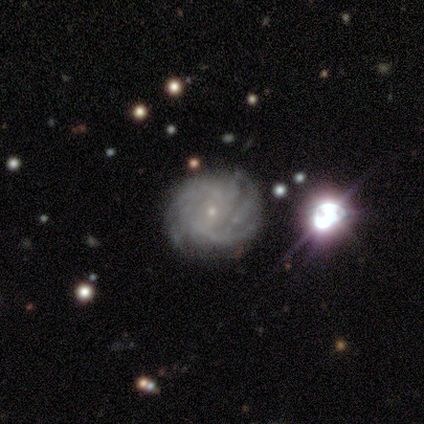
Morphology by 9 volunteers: Smooth or featured? 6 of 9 (67%) said featured or disk. Edge-on disk? 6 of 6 (100%) said no. Bar? 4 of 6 (67%) said no. Spiral arms? 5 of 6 (83%) said yes. Spiral winding? 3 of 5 (60%) said tight. Spiral arm count? 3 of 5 (60%) said can't tell. Bulge size? 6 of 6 (100%) said small. Merging? 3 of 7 (43%, tied with minor disturbance) said none.